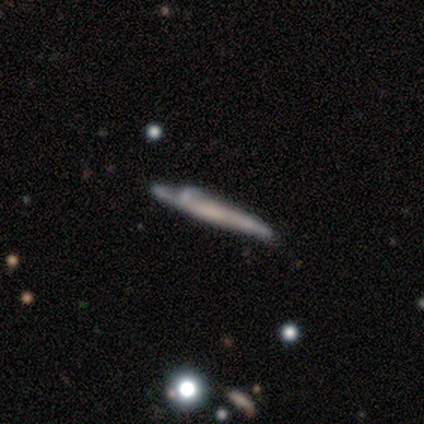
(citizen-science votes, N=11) A featured or disk galaxy (82%) viewed edge-on (78%) with no central bulge (71%).

Vote fractions:
- Smooth or featured? featured or disk: 82% / smooth: 18% / star or artifact: 0%
- Edge-on disk? yes: 78% / no: 22%
- Edge-on bulge? none: 71% / boxy: 14% / rounded: 14%
- Merging? none: 45% / minor disturbance: 27% / major disturbance: 18% / merger: 9%